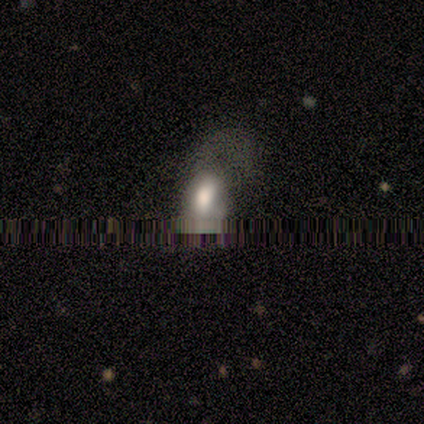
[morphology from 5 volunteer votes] smooth 40% (tied), star or artifact 40% (tied), featured or disk 20%. Down the decision tree: how rounded — round (50%, tied with in between); merging — none (67%).